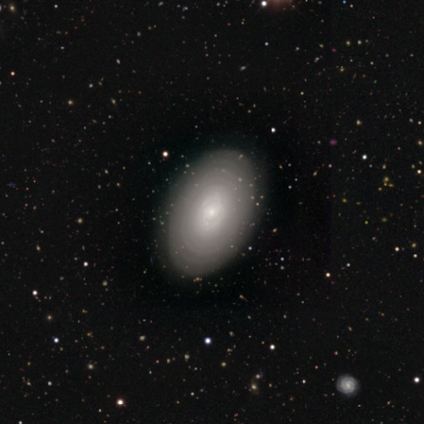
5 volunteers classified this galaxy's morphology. Smooth or featured? smooth (60%)
How rounded? in between (67%)
Merging? none (100%)